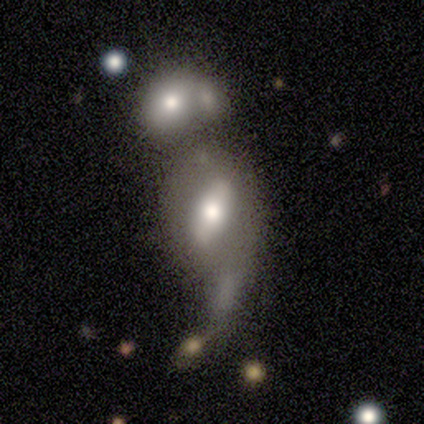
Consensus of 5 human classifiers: This is marginally a smooth galaxy (40%, tied with featured or disk). How rounded: clearly in between (100%). Merging: possibly minor disturbance (50%).